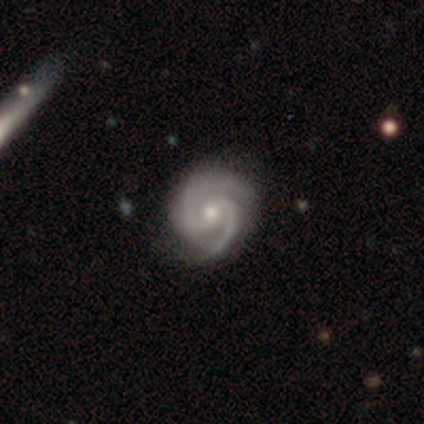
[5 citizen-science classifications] smooth_or_featured: featured or disk (p=1.00)
disk_edge_on: no (p=1.00)
bar: no (p=0.80) [alt: strong p=0.20]
has_spiral_arms: yes (p=1.00)
spiral_winding: medium (p=0.60) [alt: tight p=0.40]
spiral_arm_count: 2 (p=1.00)
bulge_size: small (p=0.60) [alt: moderate p=0.40]
merging: none (p=0.80) [alt: minor disturbance p=0.20]